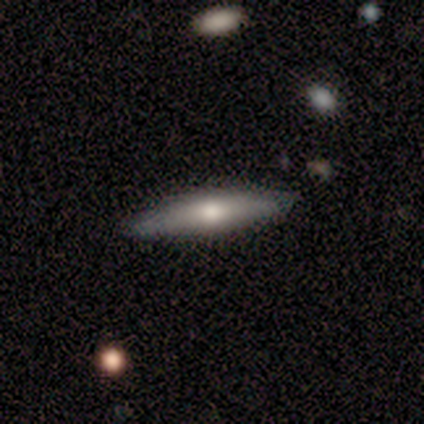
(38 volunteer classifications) smooth-or-featured: smooth: 66% | featured or disk: 32% | star or artifact: 3%
  how-rounded: cigar-shaped: 92% | in between: 8% | round: 0%
  merging: none: 92% | minor disturbance: 5% | major disturbance: 3% | merger: 0%